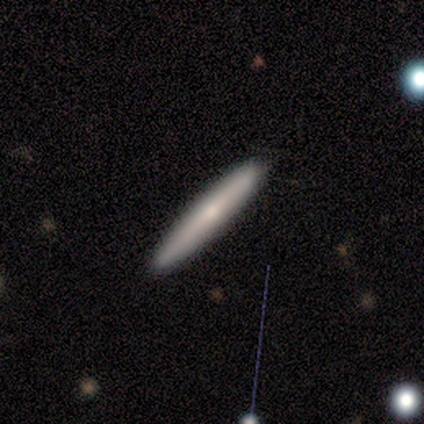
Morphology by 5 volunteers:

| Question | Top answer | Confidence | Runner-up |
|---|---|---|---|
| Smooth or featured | smooth | 100% | — |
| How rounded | cigar-shaped | 100% | — |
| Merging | none | 100% | — |